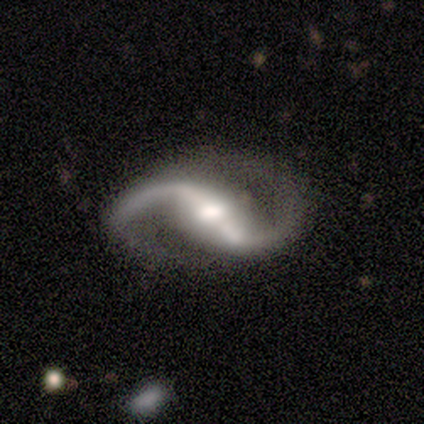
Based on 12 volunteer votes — smooth_or_featured: featured or disk (p=1.00)
disk_edge_on: no (p=0.92) [alt: yes p=0.08]
bar: strong (p=0.64) [alt: weak p=0.27]
has_spiral_arms: yes (p=0.82) [alt: no p=0.18]
spiral_winding: loose (p=0.78) [alt: tight p=0.11]
spiral_arm_count: 2 (p=1.00)
bulge_size: moderate (p=0.55) [alt: small p=0.27]
merging: none (p=0.83) [alt: minor disturbance p=0.17]